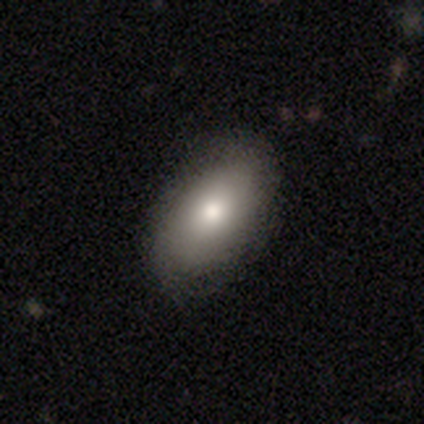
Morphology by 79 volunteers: Smooth or featured? smooth (85%)
How rounded? in between (96%)
Merging? none (51%)